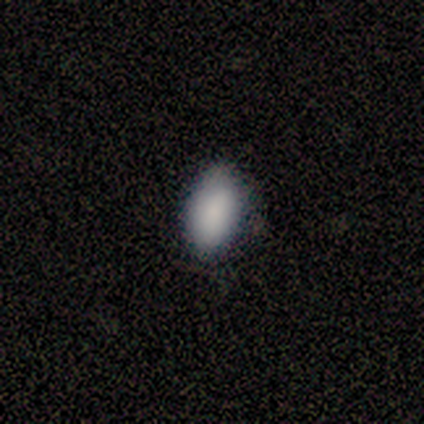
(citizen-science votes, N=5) Smooth or featured: smooth — 100%
How rounded: in between — 80% (round — 20%)
Merging: none — 60% (minor disturbance — 40%)